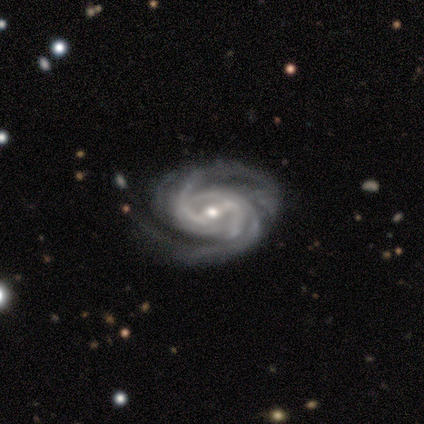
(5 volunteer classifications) featured or disk 100%, smooth 0%, star or artifact 0%. Down the decision tree: edge-on disk — no (100%); bar — weak (40%, tied with no); spiral arms — yes (100%); spiral arm count — 2 (20%, tied with 3, 4, more than 4 and can't tell); spiral winding — tight (80%); bulge size — moderate (80%); merging — none (80%).